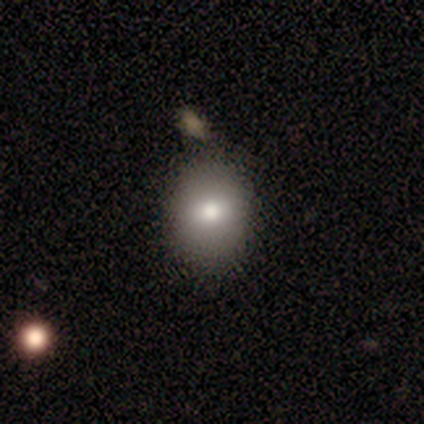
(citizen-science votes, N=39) Q: Smooth or featured?
A: smooth (79%); runner-up: featured or disk (18%)
Q: How rounded?
A: in between (58%); runner-up: round (42%)
Q: Merging?
A: none (63%); runner-up: merger (11%)